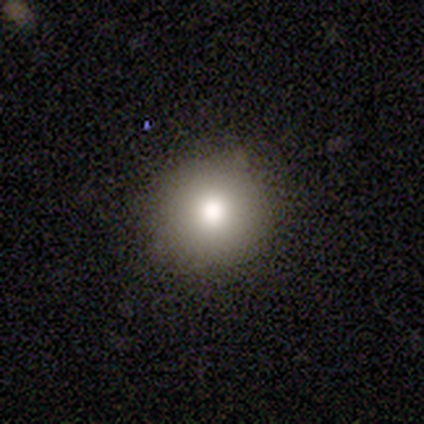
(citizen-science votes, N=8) Smooth or featured? smooth (88%)
How rounded? round (100%)
Merging? none (100%)